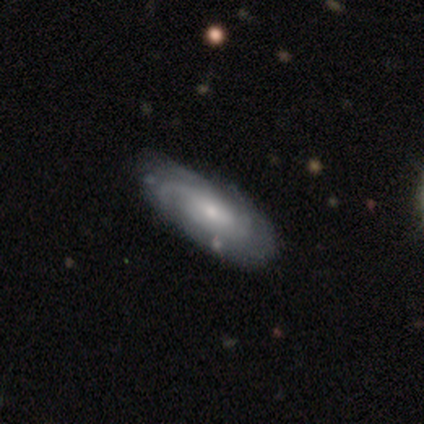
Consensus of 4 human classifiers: Volunteers were most divided on "spiral arm count" (2-way tie): 3: 50%, more than 4: 50%, 1: 0%, 2: 0%, 4: 0%, can't tell: 0%. More confident: edge-on disk — no (100%); spiral winding — tight (100%); smooth or featured — featured or disk (75%); merging — none (75%); bar — no (67%); spiral arms — yes (67%); bulge size — small (67%).